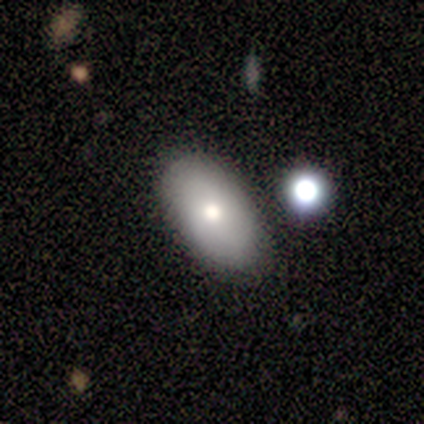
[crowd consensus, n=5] A smooth galaxy with no disk features (80%) that is in between round and cigar-shaped (100%).

Vote fractions:
- Smooth or featured? smooth: 80% / featured or disk: 20% / star or artifact: 0%
- How rounded? in between: 100% / round: 0% / cigar-shaped: 0%
- Merging? none: 80% / minor disturbance: 20% / major disturbance: 0% / merger: 0%